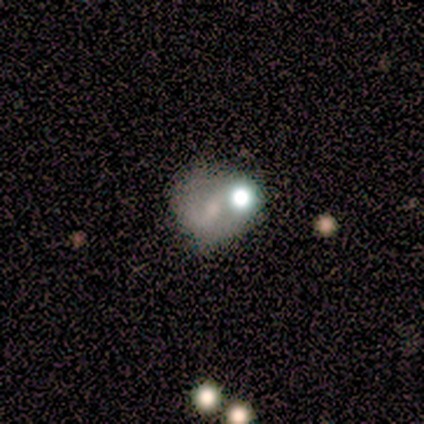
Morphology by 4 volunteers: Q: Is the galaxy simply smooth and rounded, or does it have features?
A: smooth — 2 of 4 (50%, tied with featured or disk).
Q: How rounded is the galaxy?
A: round — 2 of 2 (100%).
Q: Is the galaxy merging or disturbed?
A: none — 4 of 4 (100%).